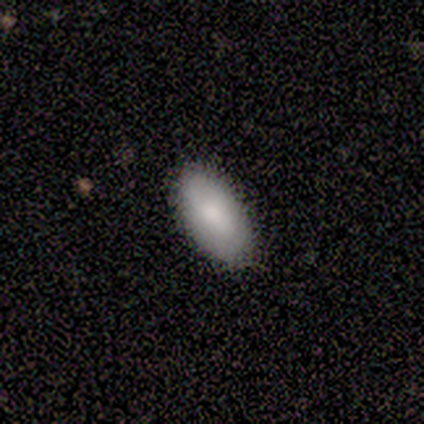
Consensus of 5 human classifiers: A smooth galaxy with no disk features (100%) that is in between round and cigar-shaped (100%).

Vote fractions:
- Smooth or featured? smooth: 100% / featured or disk: 0% / star or artifact: 0%
- How rounded? in between: 100% / round: 0% / cigar-shaped: 0%
- Merging? none: 100% / minor disturbance: 0% / major disturbance: 0% / merger: 0%